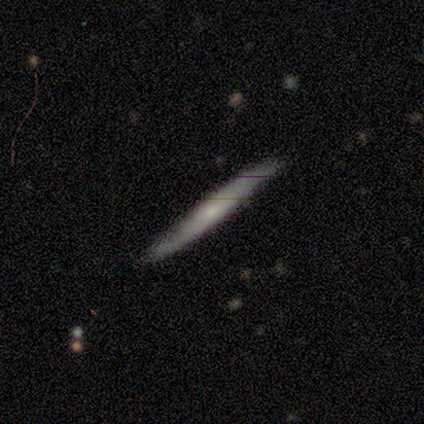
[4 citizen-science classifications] This is clearly a smooth galaxy (100%). How rounded: clearly cigar-shaped (100%). Merging: clearly none (100%).